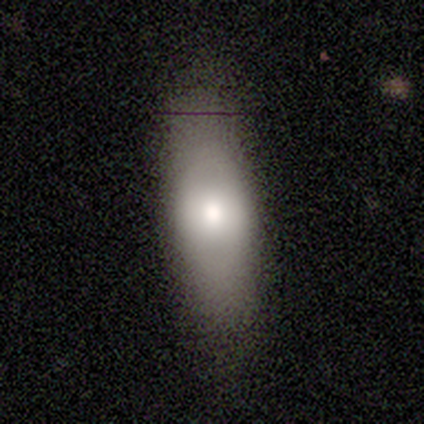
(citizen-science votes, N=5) Morphology: type=smooth (100%); roundness=in between (80%); merging=none (80%).